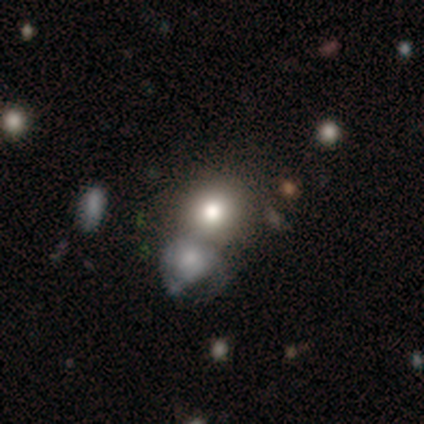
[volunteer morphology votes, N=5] smooth-or-featured: featured or disk: 60% | smooth: 40% | star or artifact: 0%
  disk-edge-on: no: 100% | yes: 0%
    bar: no: 100% | strong: 0% | weak: 0%
    has-spiral-arms: no: 100% | yes: 0%
    bulge-size: large: 33% (tied) | moderate: 33% (tied) | none: 33% (tied) | dominant: 0% | small: 0%
  merging: merger: 60% | none: 40% | minor disturbance: 0% | major disturbance: 0%